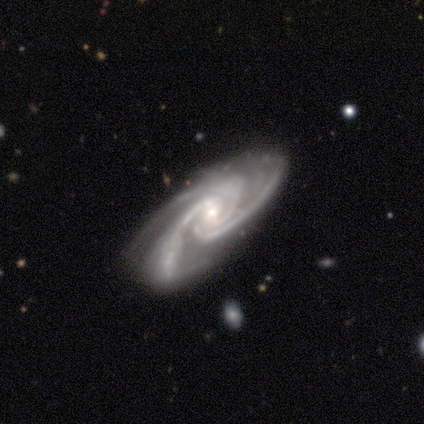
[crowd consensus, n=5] Q: Smooth or featured?
A: featured or disk (100%)
Q: Edge-on disk?
A: no (100%)
Q: Bar?
A: no (80%); runner-up: weak (20%)
Q: Spiral arms?
A: yes (100%)
Q: Spiral winding?
A: medium (60%); runner-up: tight (40%)
Q: Spiral arm count?
A: 3 (100%)
Q: Bulge size?
A: small (80%); runner-up: moderate (20%)
Q: Merging?
A: none (60%); runner-up: minor disturbance (40%)